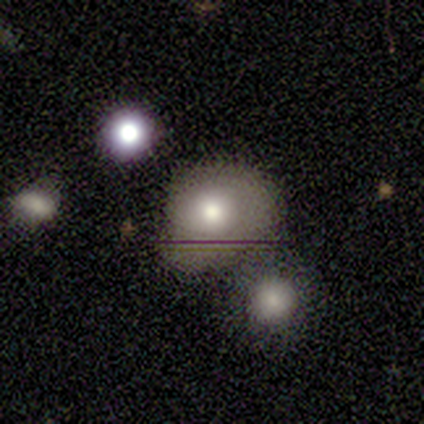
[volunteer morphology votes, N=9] Q: Smooth or featured?
A: smooth (78%); runner-up: featured or disk (11%)
Q: How rounded?
A: in between (71%); runner-up: round (29%)
Q: Merging?
A: none (38%); runner-up: minor disturbance (25%)